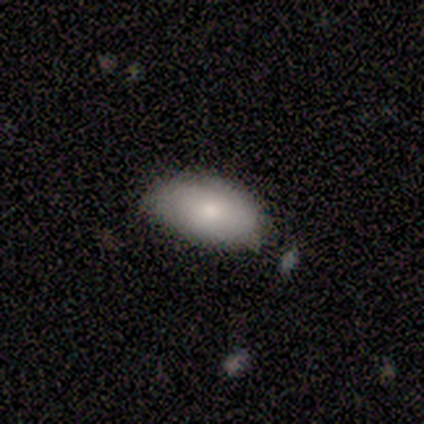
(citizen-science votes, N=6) A smooth galaxy with no disk features (83%) that is in between round and cigar-shaped (100%).

Vote fractions:
- Smooth or featured? smooth: 83% / featured or disk: 17% / star or artifact: 0%
- How rounded? in between: 100% / round: 0% / cigar-shaped: 0%
- Merging? none: 83% / minor disturbance: 17% / major disturbance: 0% / merger: 0%